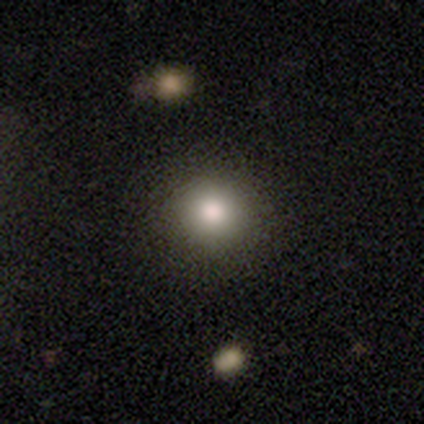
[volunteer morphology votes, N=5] Overall: smooth (80%). How rounded: round (75%). Merging: none (100%).